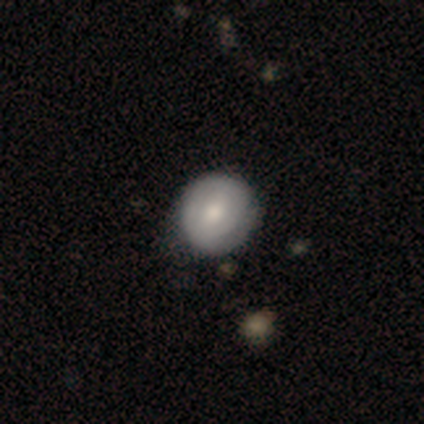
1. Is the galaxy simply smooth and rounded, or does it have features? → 54% smooth, 46% featured or disk, 0% star or artifact.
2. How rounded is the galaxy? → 91% round, 9% in between, 0% cigar-shaped.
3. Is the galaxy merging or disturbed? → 66% none, 12% minor disturbance, 2% major disturbance, 0% merger.